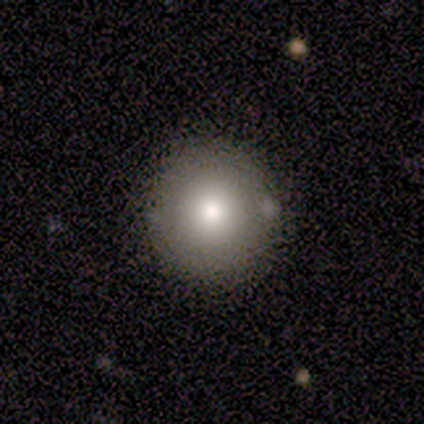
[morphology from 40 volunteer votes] This is likely a smooth galaxy (70%). How rounded: clearly round (93%). Merging: clearly none (94%).